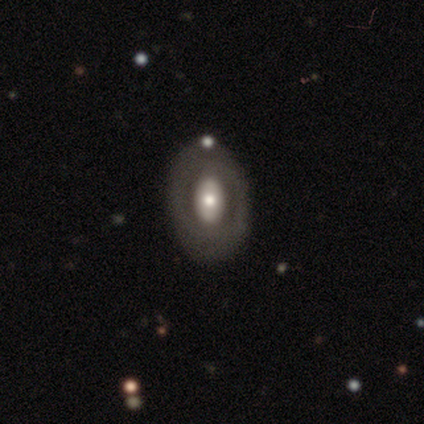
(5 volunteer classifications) A featured or disk galaxy (60%) with no bar (100%), no spiral arms (100%) and a large central bulge (50%, tied with moderate). Merging: none (40%, tied with merger).